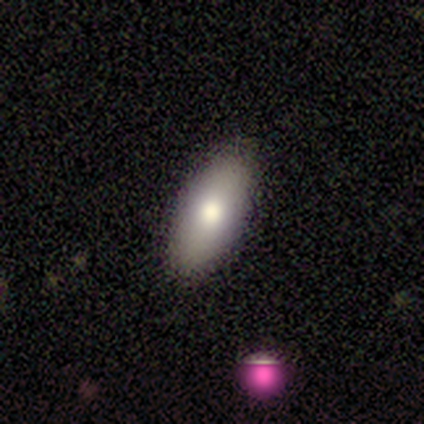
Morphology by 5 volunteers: Overall: smooth (80%). How rounded: in between (100%). Merging: none (80%).